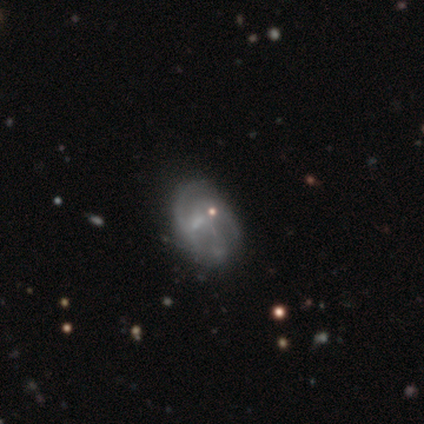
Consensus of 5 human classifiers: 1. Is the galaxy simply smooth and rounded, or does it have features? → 100% featured or disk, 0% smooth, 0% star or artifact.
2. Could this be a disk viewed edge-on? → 100% no, 0% yes.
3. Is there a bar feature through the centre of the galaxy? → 60% weak, 40% no, 0% strong.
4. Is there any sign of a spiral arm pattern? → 60% yes, 40% no.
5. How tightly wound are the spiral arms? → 67% medium, 33% tight, 0% loose.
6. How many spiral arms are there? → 33% 2 (tied), 33% 3 (tied), 33% can't tell (tied), 0% 1, 0% 4, 0% more than 4.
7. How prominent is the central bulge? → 60% none, 40% small, 0% dominant, 0% large, 0% moderate.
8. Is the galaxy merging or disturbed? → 60% none, 20% minor disturbance, 20% major disturbance, 0% merger.